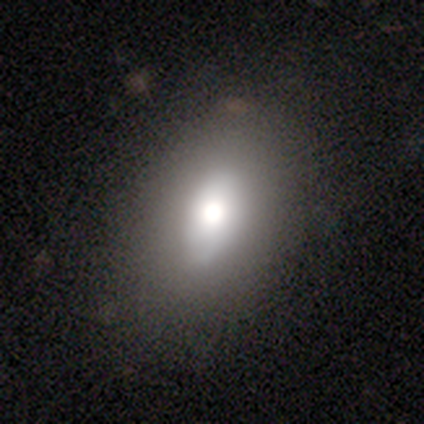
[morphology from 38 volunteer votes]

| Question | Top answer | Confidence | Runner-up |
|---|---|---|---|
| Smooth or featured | smooth | 66% | featured or disk (24%) |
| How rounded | in between | 80% | cigar-shaped (12%) |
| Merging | none | 91% | minor disturbance (6%) |